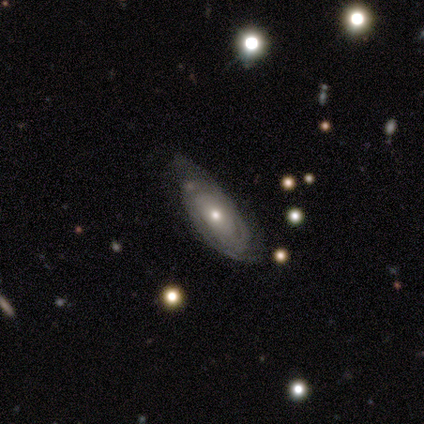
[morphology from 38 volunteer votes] Overall: featured or disk (79%). Edge-on disk: no (93%). Bar: no (86%). Spiral arms: yes (96%). Spiral arm count: can't tell (44%; 2 30%). Spiral winding: tight (81%). Bulge size: small (50%; moderate 46%). Merging: none (69%).